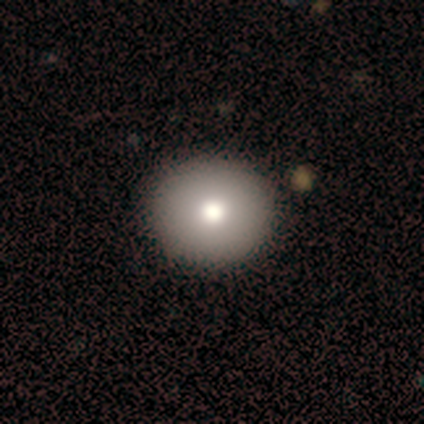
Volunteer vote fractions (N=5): Overall: smooth (80%). How rounded: round (75%). Merging: none (100%).